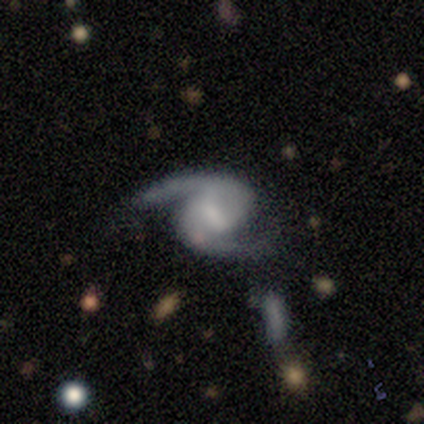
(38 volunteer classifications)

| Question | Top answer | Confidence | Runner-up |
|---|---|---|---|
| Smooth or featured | featured or disk | 97% | smooth (3%) |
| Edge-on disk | no | 100% | — |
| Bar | weak | 51% | strong (30%) |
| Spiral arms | yes | 95% | no (5%) |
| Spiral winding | medium | 51% | loose (34%) |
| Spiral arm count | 2 | 97% | can't tell (3%) |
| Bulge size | small | 35% | none (30%) |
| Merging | none | 63% | minor disturbance (21%) |